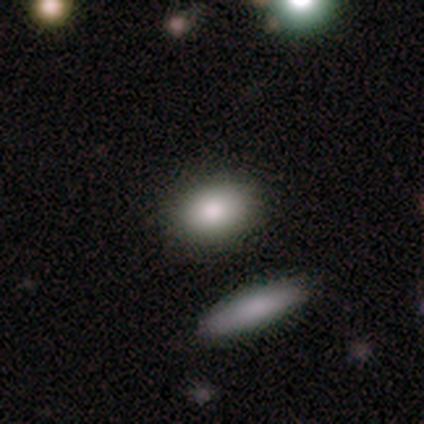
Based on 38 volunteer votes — Smooth or featured?
  - smooth: 87% *
  - featured or disk: 13%
  - star or artifact: 0%
How rounded?
  - in between: 73% *
  - round: 18%
  - cigar-shaped: 9%
Merging?
  - none: 92% *
  - minor disturbance: 5%
  - major disturbance: 3%
  - merger: 0%